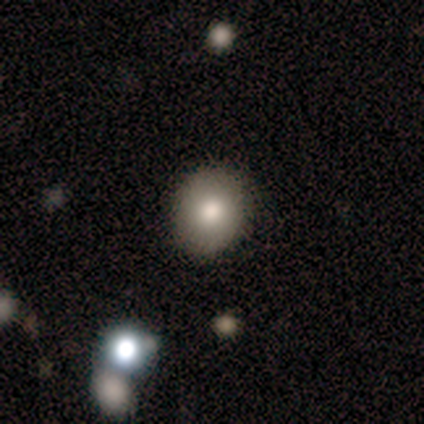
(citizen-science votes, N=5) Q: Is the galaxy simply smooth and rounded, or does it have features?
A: smooth — 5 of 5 (100%).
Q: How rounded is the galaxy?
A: round — 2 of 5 (40%, tied with in between).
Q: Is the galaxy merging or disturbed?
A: none — 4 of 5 (80%).